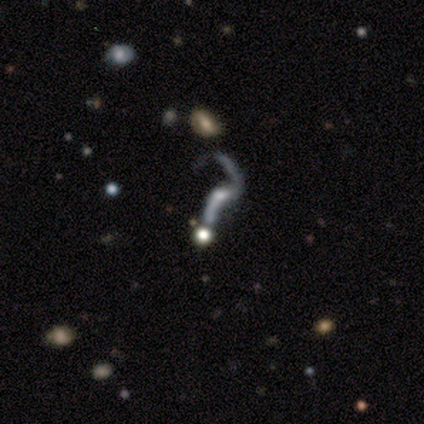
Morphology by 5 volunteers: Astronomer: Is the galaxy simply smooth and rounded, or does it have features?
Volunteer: star or artifact — 60% (runner-up: featured or disk, 40%).